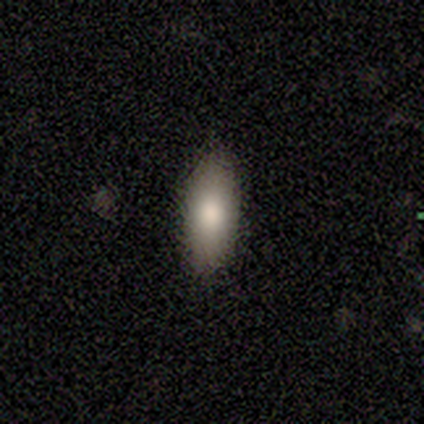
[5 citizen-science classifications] Q: Smooth or featured?
A: smooth (80%); runner-up: star or artifact (20%)
Q: How rounded?
A: in between (100%)
Q: Merging?
A: none (100%)